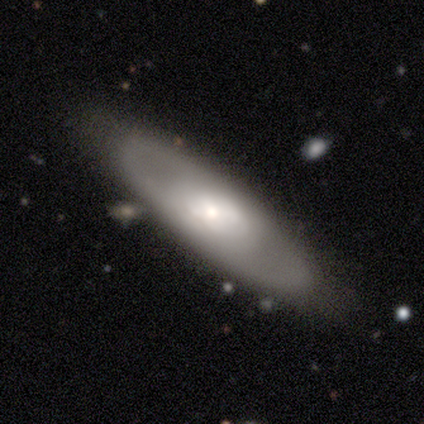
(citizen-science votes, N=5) This appears to be a smooth galaxy with no disk features (80%) that is in between round and cigar-shaped (50%, tied with cigar-shaped). Merging: none (40%, tied with minor disturbance).